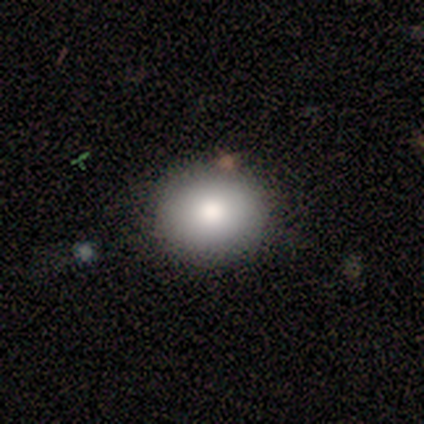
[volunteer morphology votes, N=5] Volunteers were most divided on "smooth or featured": smooth: 60%, featured or disk: 20%, star or artifact: 20%. More confident: how rounded — round (100%); merging — none (100%).